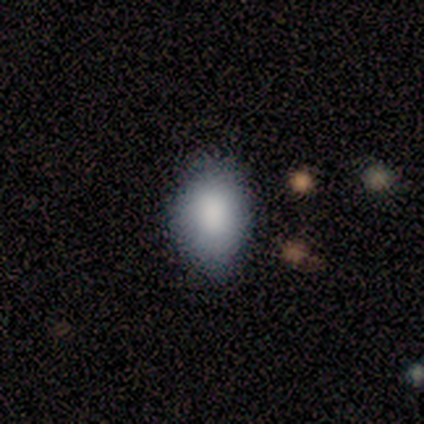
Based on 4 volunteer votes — smooth_or_featured: smooth (p=1.00)
how_rounded: in between (p=1.00)
merging: none (p=0.75) [alt: minor disturbance p=0.25]